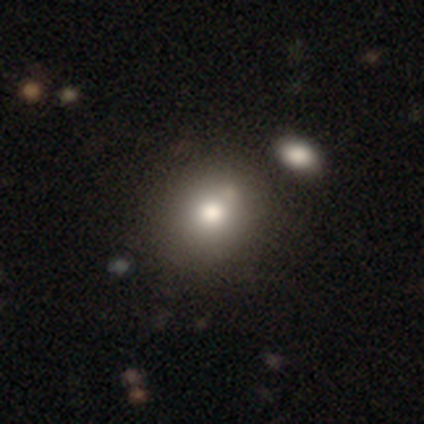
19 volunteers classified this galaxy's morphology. A smooth galaxy with no disk features (74%) that is round (86%). Merging: none (82%).